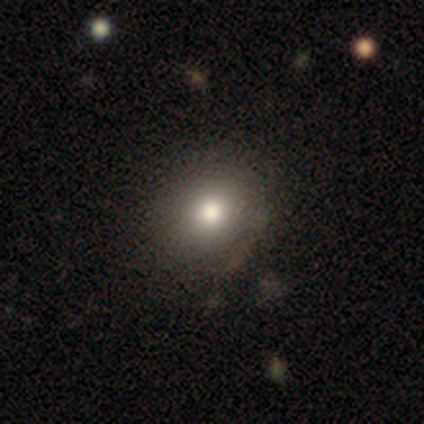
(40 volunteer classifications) Smooth or featured?
  - smooth: 85% *
  - featured or disk: 10%
  - star or artifact: 5%
How rounded?
  - round: 74% *
  - in between: 26%
  - cigar-shaped: 0%
Merging?
  - none: 53% *
  - minor disturbance: 8%
  - major disturbance: 0%
  - merger: 0%